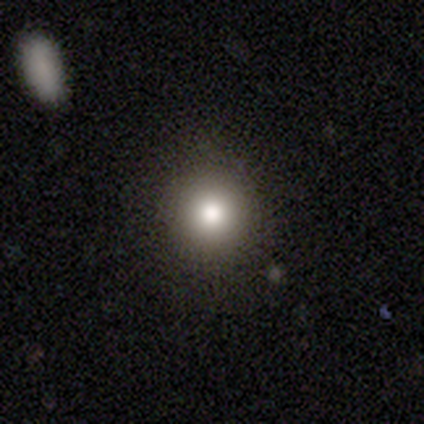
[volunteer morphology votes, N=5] Q: Smooth or featured?
A: smooth (100%)
Q: How rounded?
A: round (80%); runner-up: in between (20%)
Q: Merging?
A: minor disturbance (60%); runner-up: none (40%)